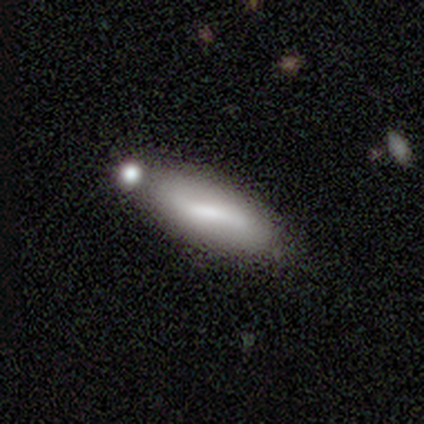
This is likely a smooth galaxy (60%). How rounded: clearly in between (100%). Merging: likely none (60%).